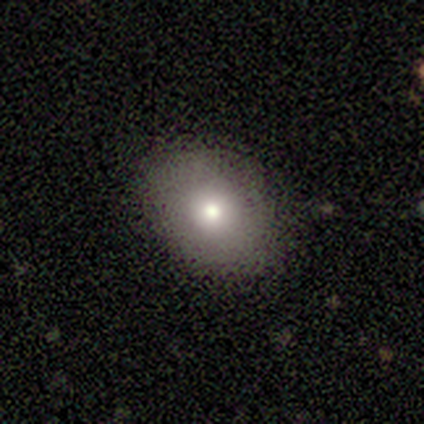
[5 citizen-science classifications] Q: Smooth or featured?
A: smooth (80%); runner-up: featured or disk (20%)
Q: How rounded?
A: in between (75%); runner-up: round (25%)
Q: Merging?
A: none (60%); runner-up: minor disturbance (40%)